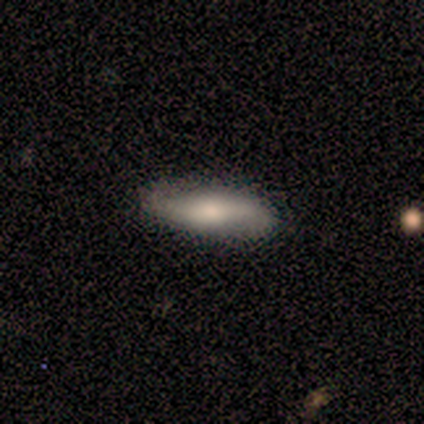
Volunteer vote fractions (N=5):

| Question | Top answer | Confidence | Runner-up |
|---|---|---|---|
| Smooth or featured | smooth | 100% | — |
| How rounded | in between | 80% | cigar-shaped (20%) |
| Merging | none | 100% | — |